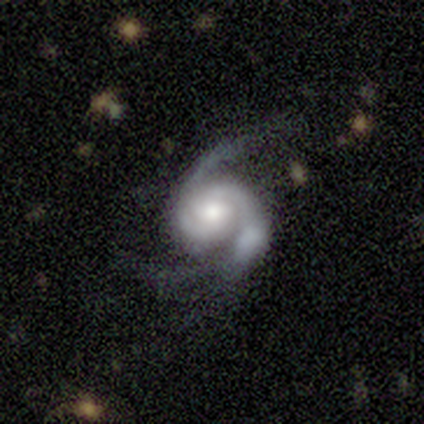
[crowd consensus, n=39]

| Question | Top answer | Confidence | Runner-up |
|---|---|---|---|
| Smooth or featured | featured or disk | 92% | star or artifact (5%) |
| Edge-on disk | no | 100% | — |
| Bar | no | 72% | weak (25%) |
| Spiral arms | yes | 100% | — |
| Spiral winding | medium | 44% | tight (42%) |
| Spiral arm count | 2 | 67% | 3 (28%) |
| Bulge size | moderate | 75% | small (14%) |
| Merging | none | 54% | major disturbance (22%) |